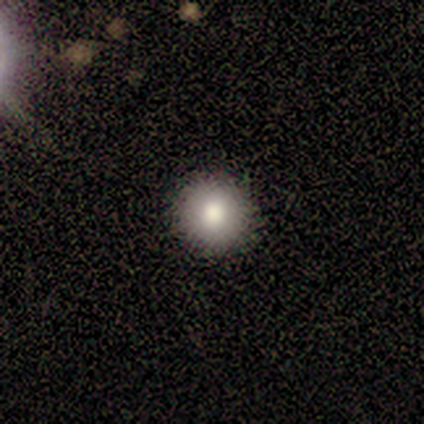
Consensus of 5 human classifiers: smooth 100%, featured or disk 0%, star or artifact 0%. Down the decision tree: how rounded — round (100%); merging — none (80%).